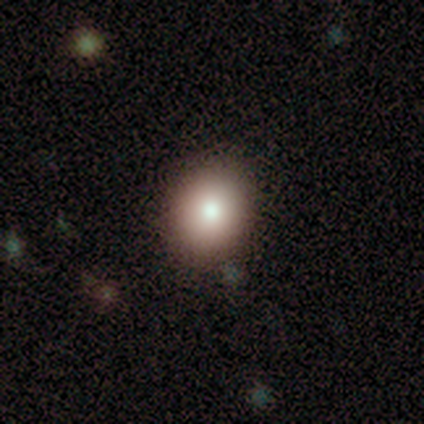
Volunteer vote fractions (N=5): Q: Smooth or featured?
A: smooth (80%); runner-up: featured or disk (20%)
Q: How rounded?
A: round (75%); runner-up: in between (25%)
Q: Merging?
A: none (60%); runner-up: minor disturbance (40%)